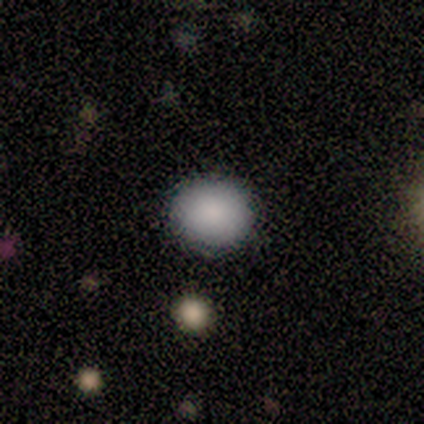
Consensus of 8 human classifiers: smooth_or_featured: smooth (p=0.88) [alt: featured or disk p=0.12]
how_rounded: round (p=0.71) [alt: in between p=0.14]
merging: none (p=0.88) [alt: minor disturbance p=0.12]